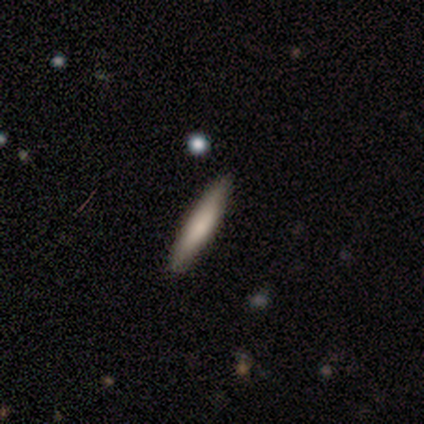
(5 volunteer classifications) Morphology: type=smooth (100%); roundness=cigar-shaped (100%); merging=none (100%).